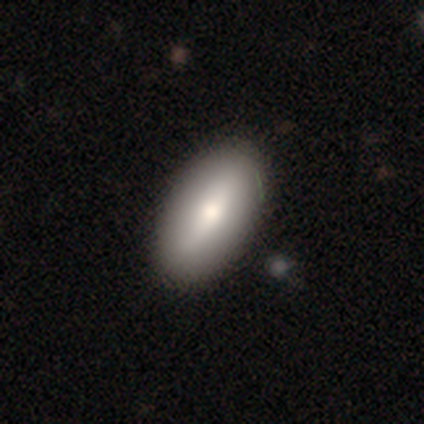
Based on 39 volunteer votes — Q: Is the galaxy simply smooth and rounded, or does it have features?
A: smooth — 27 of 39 (69%).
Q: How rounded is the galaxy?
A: in between — 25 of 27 (93%).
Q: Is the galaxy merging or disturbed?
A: none — 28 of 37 (76%).